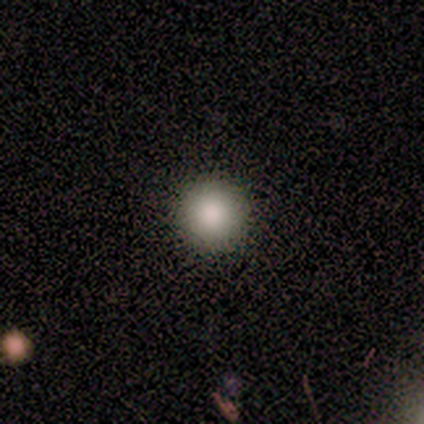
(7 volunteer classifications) smooth 86%, star or artifact 14%, featured or disk 0%. Down the decision tree: how rounded — round (83%); merging — none (100%).